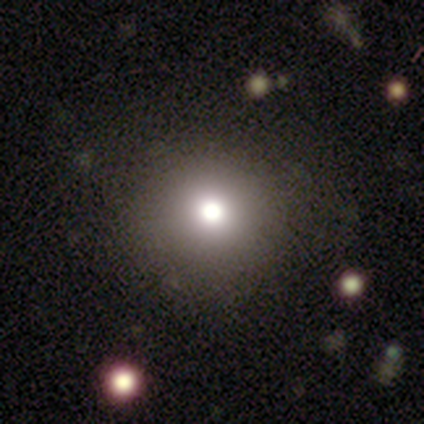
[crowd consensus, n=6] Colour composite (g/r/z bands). It shows a smooth galaxy with no disk features (50%) that is round (100%). Merging: none (100%).